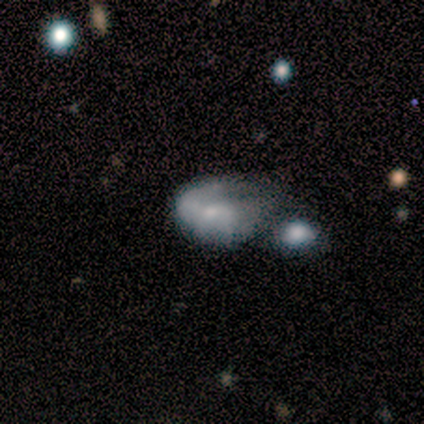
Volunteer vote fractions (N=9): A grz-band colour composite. It shows a smooth galaxy with no disk features (56%) that is in between round and cigar-shaped (100%). Merging: minor disturbance (38%, tied with major disturbance).